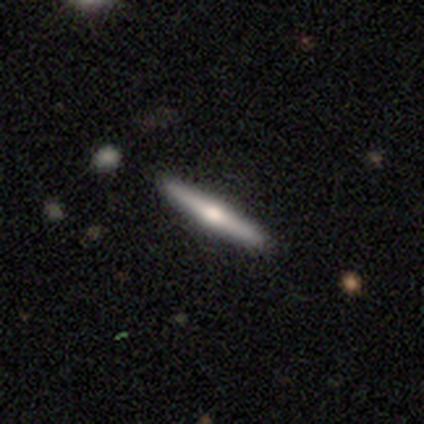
Overall: featured or disk (80%). Edge-on disk: yes (75%). Edge-on bulge: rounded (100%). Merging: none (100%).